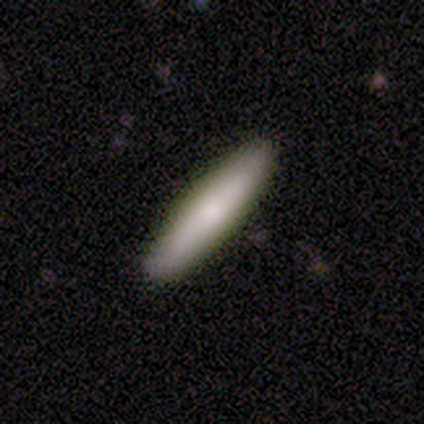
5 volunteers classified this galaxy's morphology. Smooth or featured? featured or disk (60%)
Edge-on disk? yes (100%)
Edge-on bulge? rounded (67%)
Merging? none (60%)